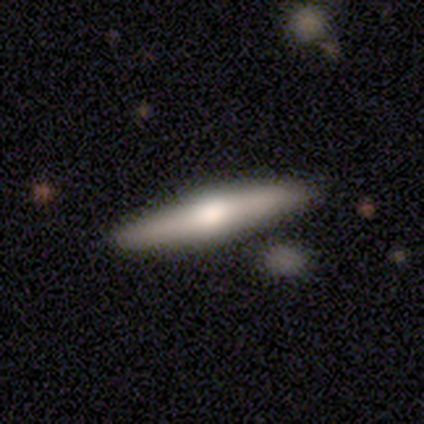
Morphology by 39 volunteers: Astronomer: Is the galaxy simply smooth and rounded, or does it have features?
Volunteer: featured or disk — 59% (runner-up: smooth, 36%).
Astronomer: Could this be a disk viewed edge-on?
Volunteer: yes — 87%.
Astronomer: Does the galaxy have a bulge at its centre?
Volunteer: rounded — 80%.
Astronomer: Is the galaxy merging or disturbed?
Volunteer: none — 84%.